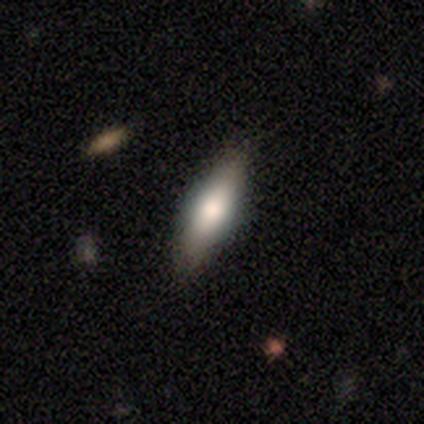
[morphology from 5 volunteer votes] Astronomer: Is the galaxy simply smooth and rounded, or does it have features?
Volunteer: smooth — 100%.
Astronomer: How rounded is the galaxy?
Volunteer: in between — 60% (runner-up: cigar-shaped, 40%).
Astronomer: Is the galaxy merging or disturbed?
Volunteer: none — 100%.